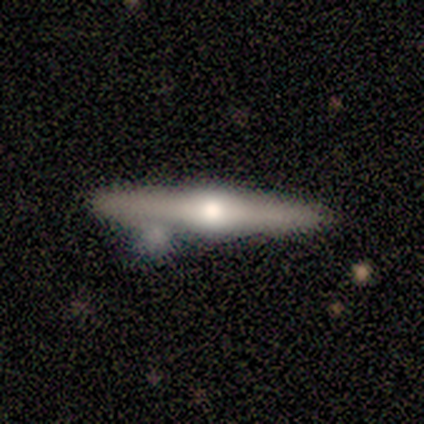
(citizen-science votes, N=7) Morphology: type=featured or disk (57%); edge-on=yes (100%); edge-on bulge=rounded (100%); merging=none (71%).